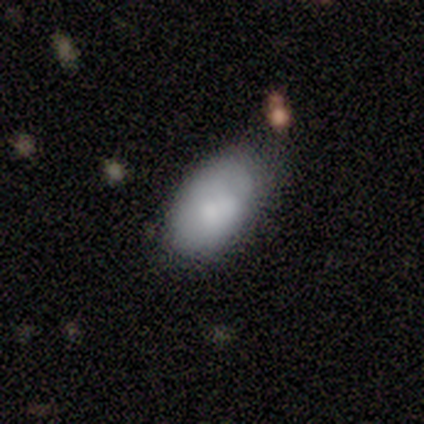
This is clearly a smooth galaxy (80%). How rounded: clearly in between (100%). Merging: marginally none (40%).